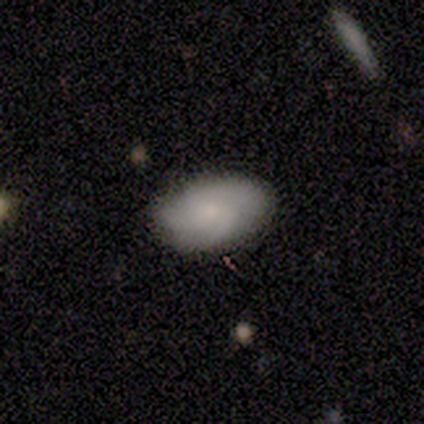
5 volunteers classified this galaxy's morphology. Smooth or featured? 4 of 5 (80%) said smooth. How rounded? 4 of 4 (100%) said in between. Merging? 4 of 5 (80%) said none.